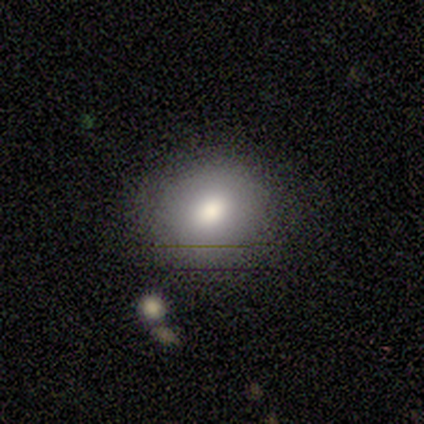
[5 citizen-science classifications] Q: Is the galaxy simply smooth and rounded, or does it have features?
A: smooth — 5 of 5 (100%).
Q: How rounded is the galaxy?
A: in between — 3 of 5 (60%).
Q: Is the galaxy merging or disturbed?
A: none — 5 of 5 (100%).